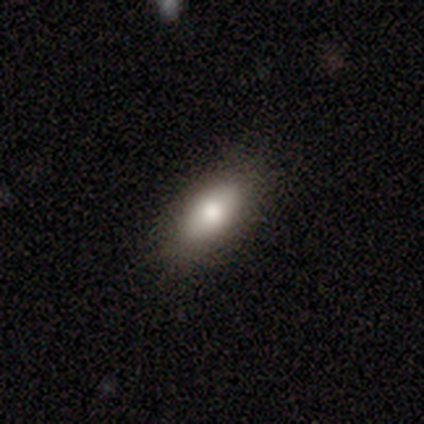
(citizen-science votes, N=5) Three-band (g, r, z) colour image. It shows a smooth galaxy with no disk features (100%) that is in between round and cigar-shaped (100%). Merging: none (80%).